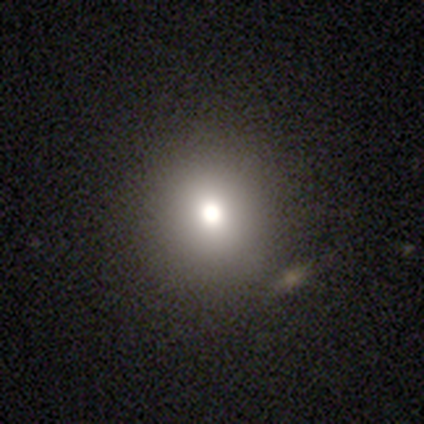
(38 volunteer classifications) Morphology: type=smooth (66%); roundness=round (100%); merging=none (79%).